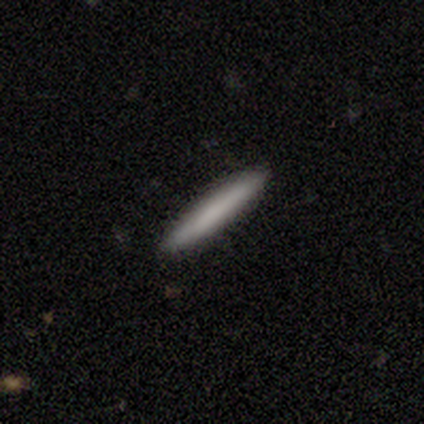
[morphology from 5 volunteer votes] Q: Smooth or featured?
A: smooth (100%)
Q: How rounded?
A: cigar-shaped (100%)
Q: Merging?
A: none (100%)